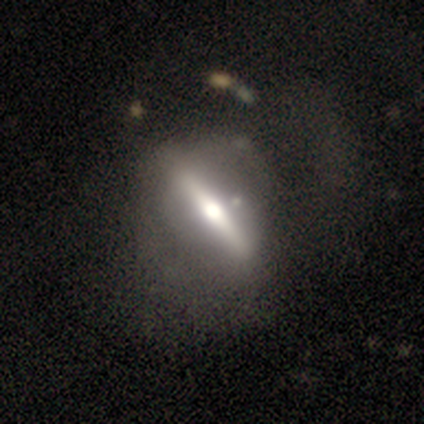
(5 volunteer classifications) A smooth galaxy with no disk features (60%) that is round (67%).

Vote fractions:
- Smooth or featured? smooth: 60% / featured or disk: 40% / star or artifact: 0%
- How rounded? round: 67% / cigar-shaped: 33% / in between: 0%
- Merging? none: 40% (tied) / major disturbance: 40% (tied) / minor disturbance: 20% / merger: 0%